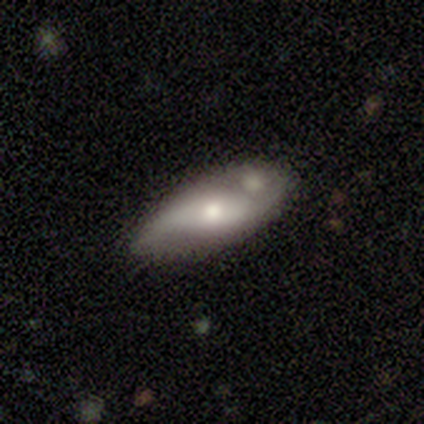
Q: Smooth or featured?
A: smooth (60%); runner-up: featured or disk (40%)
Q: How rounded?
A: in between (100%)
Q: Merging?
A: none (80%); runner-up: merger (20%)